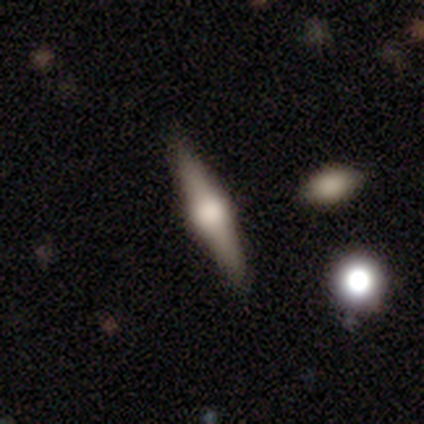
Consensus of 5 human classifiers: Smooth or featured: featured or disk — 100%
Edge-on disk: yes — 100%
Edge-on bulge: rounded — 80% (boxy — 20%)
Merging: none — 100%